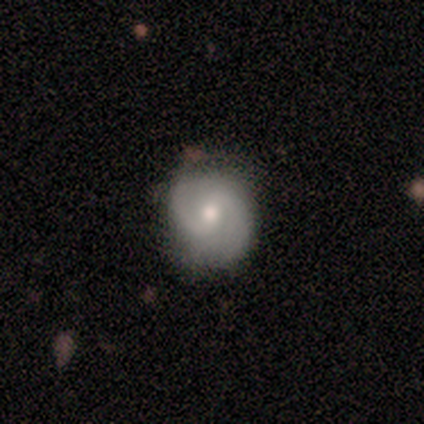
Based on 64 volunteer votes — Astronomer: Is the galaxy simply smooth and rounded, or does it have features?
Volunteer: featured or disk — 77%.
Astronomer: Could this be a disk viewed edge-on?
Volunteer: no — 96%.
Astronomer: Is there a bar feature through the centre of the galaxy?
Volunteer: weak — 57% (runner-up: no, 36%).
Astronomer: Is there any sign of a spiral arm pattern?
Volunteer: yes — 98%.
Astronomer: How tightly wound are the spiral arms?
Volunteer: medium — 57% (runner-up: tight, 35%).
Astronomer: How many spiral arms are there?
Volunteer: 2 — 93%.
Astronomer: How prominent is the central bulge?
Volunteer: moderate — 70%.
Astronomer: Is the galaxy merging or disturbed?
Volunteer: none — 82%.